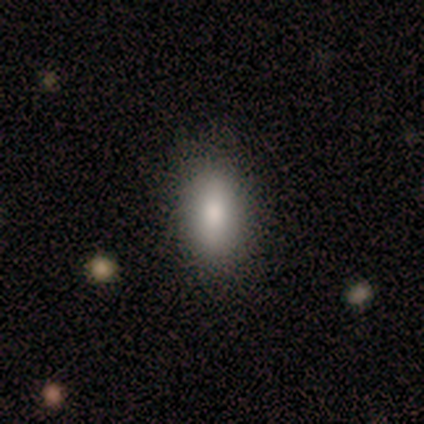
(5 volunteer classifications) Overall: smooth (40%, tied with featured or disk). How rounded: in between (100%). Merging: none (100%).